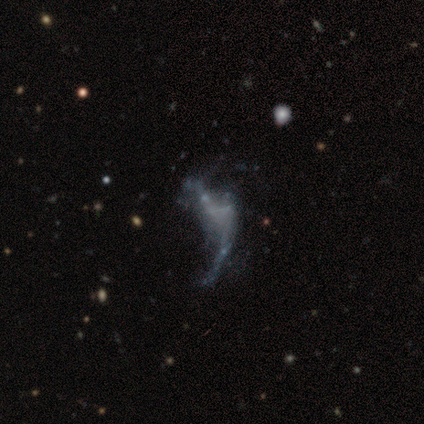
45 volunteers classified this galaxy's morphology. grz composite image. It shows a featured or disk galaxy (76%) with no bar (88%), no spiral arms (85%) and no central bulge (94%). Merging: major disturbance (42%).